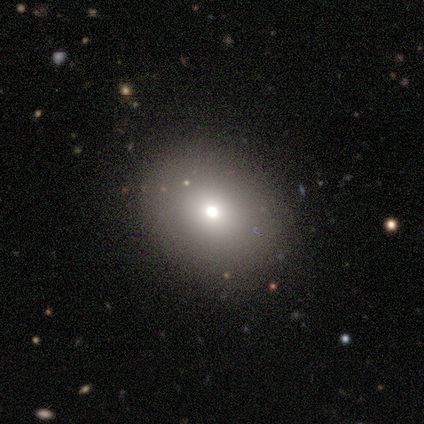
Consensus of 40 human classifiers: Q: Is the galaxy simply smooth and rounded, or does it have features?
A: smooth — 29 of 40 (72%).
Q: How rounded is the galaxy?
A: round — 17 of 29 (59%).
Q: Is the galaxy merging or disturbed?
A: none — 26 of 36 (72%).